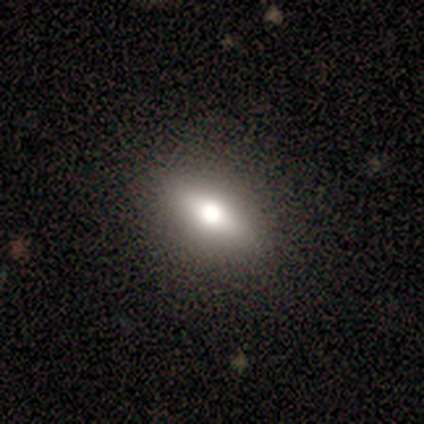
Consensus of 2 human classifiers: Consensus on every question: smooth or featured — smooth (100%); how rounded — in between (100%); merging — none (100%).